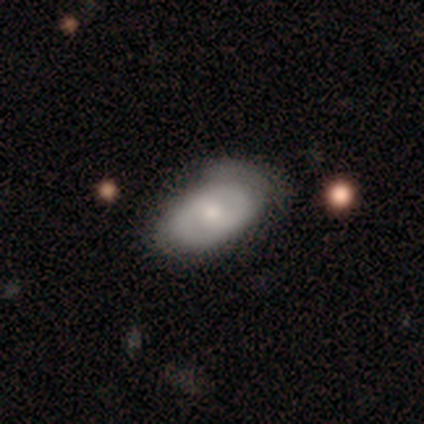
Morphology: type=featured or disk (60%); edge-on=no (100%); bar=weak (67%); spiral arms=yes (67%); winding=tight (100%); arm count=2 (100%); bulge=small (67%); merging=minor disturbance (60%).